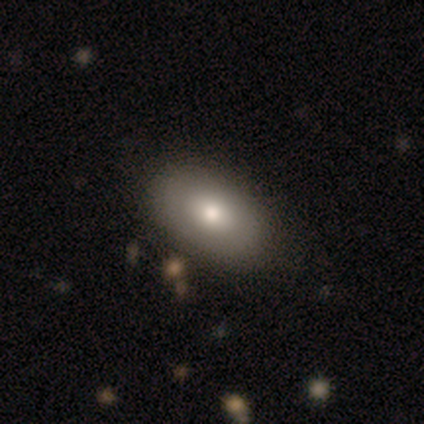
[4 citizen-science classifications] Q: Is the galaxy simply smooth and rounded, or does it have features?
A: smooth — 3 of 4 (75%).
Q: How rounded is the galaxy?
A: in between — 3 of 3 (100%).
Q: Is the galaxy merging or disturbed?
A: none — 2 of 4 (50%, tied with minor disturbance).